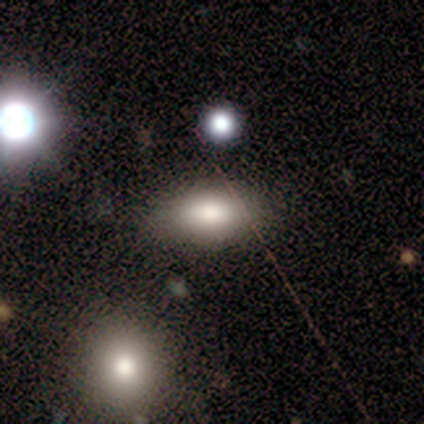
A smooth galaxy with no disk features (80%) that is in between round and cigar-shaped (100%).

Vote fractions:
- Smooth or featured? smooth: 80% / featured or disk: 20% / star or artifact: 0%
- How rounded? in between: 100% / round: 0% / cigar-shaped: 0%
- Merging? none: 100% / minor disturbance: 0% / major disturbance: 0% / merger: 0%